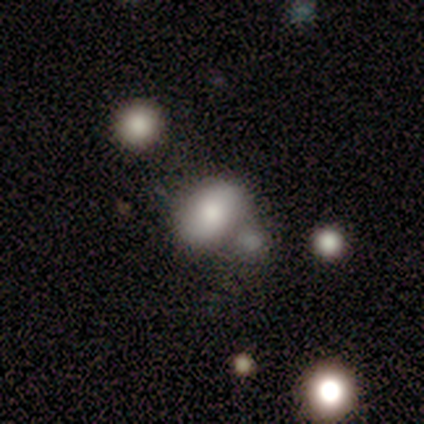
smooth 100%, featured or disk 0%, star or artifact 0%. Down the decision tree: how rounded — in between (100%); merging — none (80%).